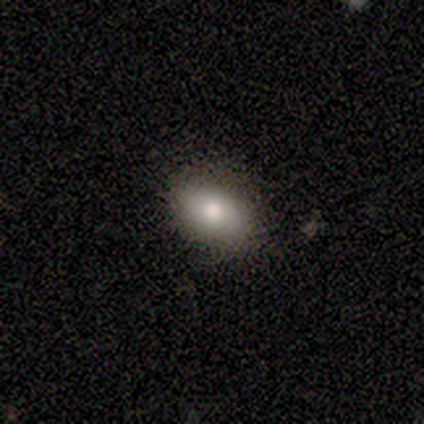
smooth-or-featured: smooth: 60% | featured or disk: 40% | star or artifact: 0%
  how-rounded: in between: 100% | round: 0% | cigar-shaped: 0%
  merging: none: 100% | minor disturbance: 0% | major disturbance: 0% | merger: 0%